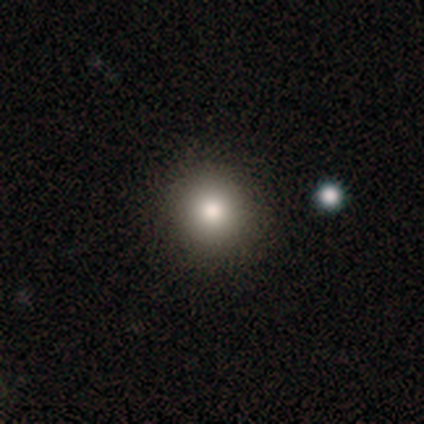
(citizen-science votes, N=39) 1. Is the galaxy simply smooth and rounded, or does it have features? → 79% smooth, 10% featured or disk, 10% star or artifact.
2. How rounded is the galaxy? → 100% round, 0% in between, 0% cigar-shaped.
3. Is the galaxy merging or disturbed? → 97% none, 3% minor disturbance, 0% major disturbance, 0% merger.